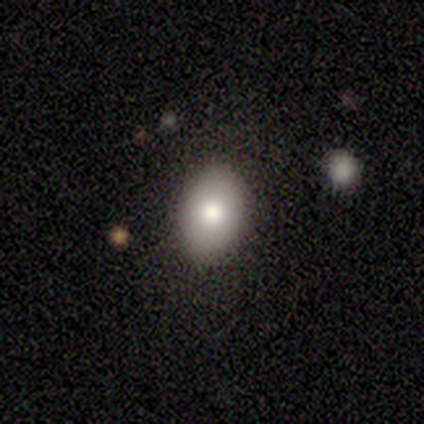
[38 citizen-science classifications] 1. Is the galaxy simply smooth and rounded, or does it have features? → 87% smooth, 13% featured or disk, 0% star or artifact.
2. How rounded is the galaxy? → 79% in between, 21% round, 0% cigar-shaped.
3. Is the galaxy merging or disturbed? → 84% none, 16% minor disturbance, 0% major disturbance, 0% merger.